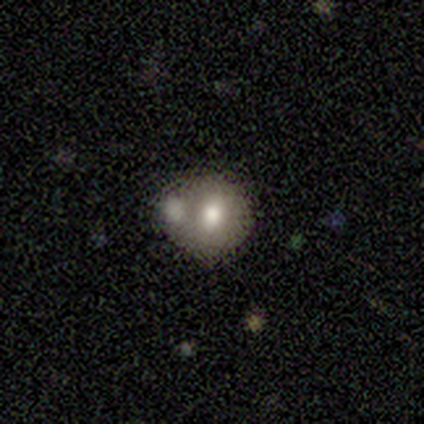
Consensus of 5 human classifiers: Q: Smooth or featured?
A: smooth (60%); runner-up: featured or disk (40%)
Q: How rounded?
A: round (100%)
Q: Merging?
A: none (60%); runner-up: merger (40%)